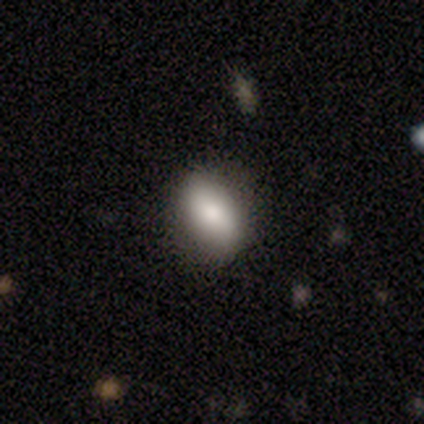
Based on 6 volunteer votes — This appears to be a smooth galaxy with no disk features (100%) that is in between round and cigar-shaped (100%). Merging: none (50%, tied with minor disturbance).